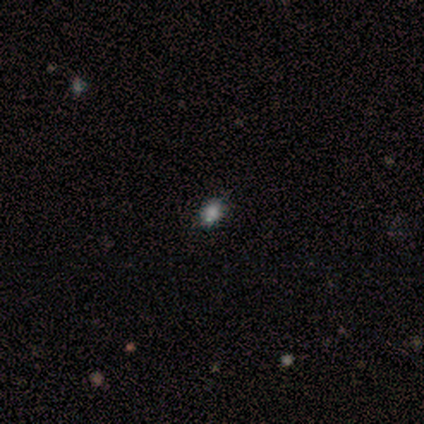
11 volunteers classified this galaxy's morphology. type=smooth (73%); roundness=in between (75%); merging=none (78%).